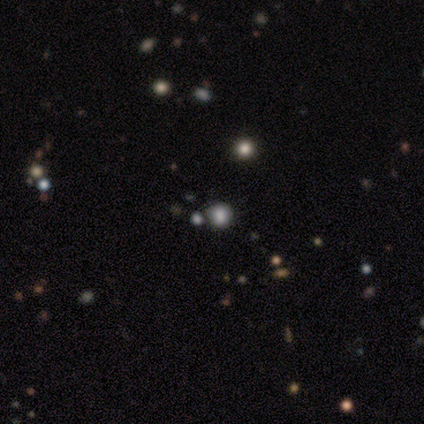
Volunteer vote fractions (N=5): Morphology: type=smooth (60%); roundness=round (100%); merging=none (67%).